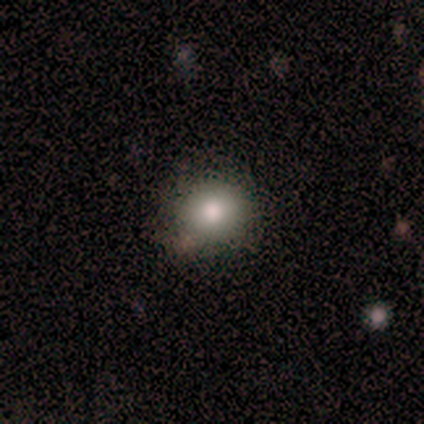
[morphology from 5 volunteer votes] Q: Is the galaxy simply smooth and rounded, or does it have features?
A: smooth — 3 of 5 (60%).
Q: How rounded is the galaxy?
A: round — 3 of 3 (100%).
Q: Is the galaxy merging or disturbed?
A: none — 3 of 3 (100%).